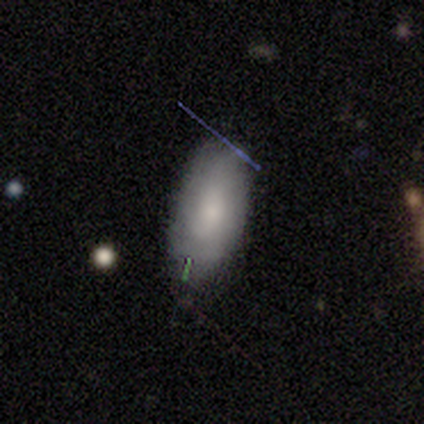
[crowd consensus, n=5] This appears to be a smooth galaxy with no disk features (60%) that is in between round and cigar-shaped (100%). Merging: none (50%, tied with minor disturbance).